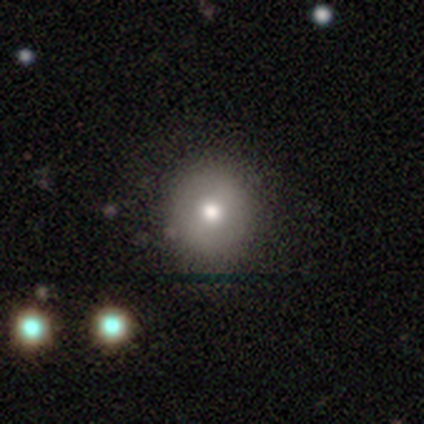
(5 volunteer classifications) Overall: smooth (60%; star or artifact 40%). How rounded: in between (67%; round 33%). Merging: none (100%).